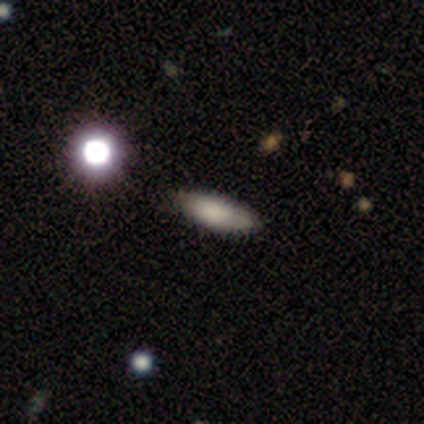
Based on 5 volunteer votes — Morphology: type=smooth (80%); roundness=in between (75%); merging=none (40%, tied with minor disturbance).